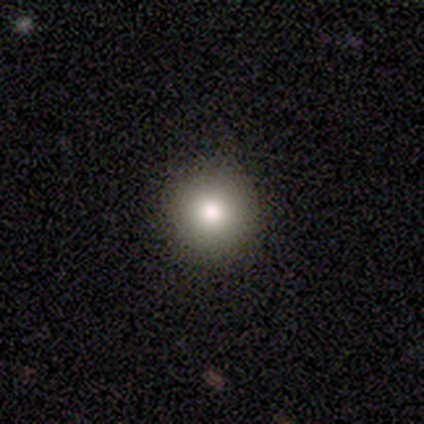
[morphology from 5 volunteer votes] This appears to be a smooth galaxy with no disk features (80%) that is round (100%). Merging: none (100%).